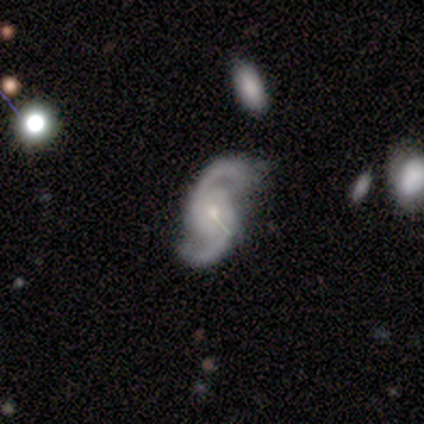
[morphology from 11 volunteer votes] Smooth or featured: featured or disk — 100%
Edge-on disk: no — 100%
Bar: no — 73% (weak — 18%)
Spiral arms: yes — 91% (no — 9%)
Spiral winding: medium — 80% (tight — 20%)
Spiral arm count: 2 — 100%
Bulge size: small — 55% (moderate — 36%)
Merging: none — 64% (minor disturbance — 36%)